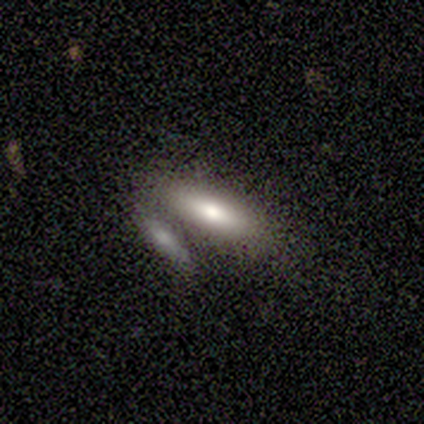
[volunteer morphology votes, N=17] Volunteers were most divided on "how rounded": cigar-shaped: 55%, in between: 45%, round: 0%. More confident: smooth or featured — smooth (65%); merging — none (62%).